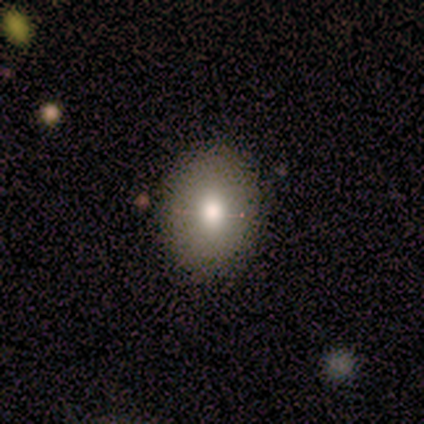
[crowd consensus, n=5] Q: Smooth or featured?
A: smooth (40%); tied with: star or artifact (40%)
Q: How rounded?
A: round (100%)
Q: Merging?
A: none (100%)